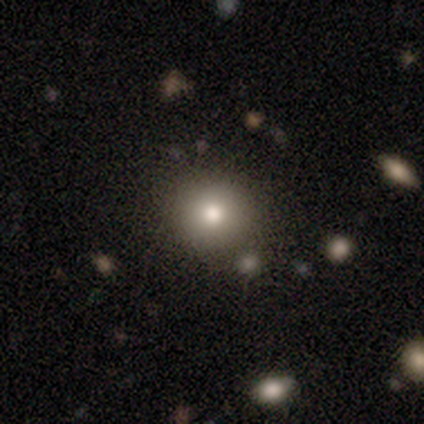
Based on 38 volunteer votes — Morphology: type=smooth (79%); roundness=round (90%); merging=none (85%).